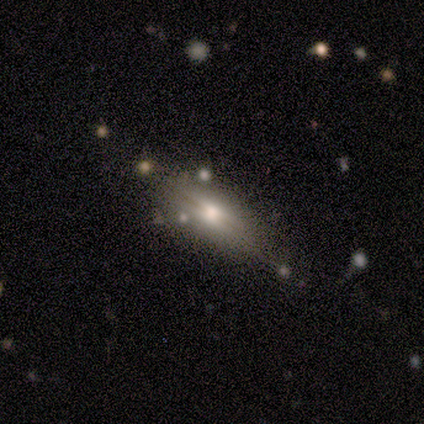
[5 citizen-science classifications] smooth 60%, featured or disk 40%, star or artifact 0%. Down the decision tree: how rounded — in between (100%); merging — none (100%).